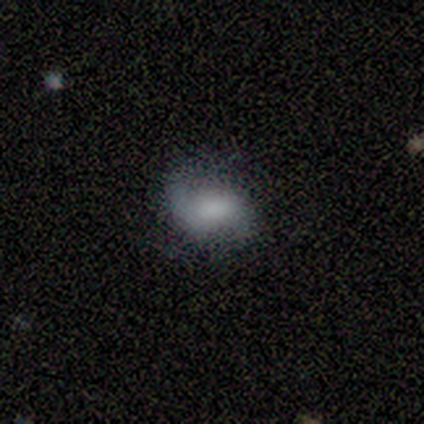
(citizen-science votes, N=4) smooth 50% (tied), featured or disk 50% (tied), star or artifact 0%. Down the decision tree: how rounded — in between (100%); merging — none (50%).